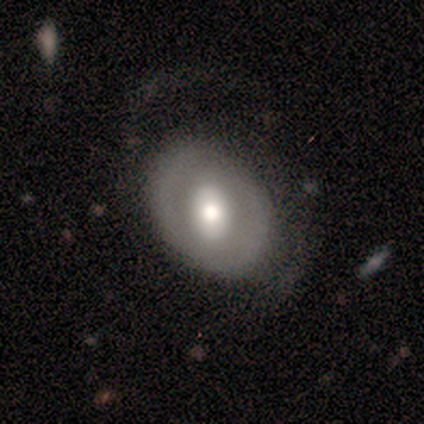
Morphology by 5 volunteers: Smooth or featured?
  - smooth: 60% *
  - featured or disk: 40%
  - star or artifact: 0%
How rounded?
  - in between: 67% *
  - round: 33%
  - cigar-shaped: 0%
Merging?
  - none: 60% *
  - minor disturbance: 20%
  - major disturbance: 20%
  - merger: 0%